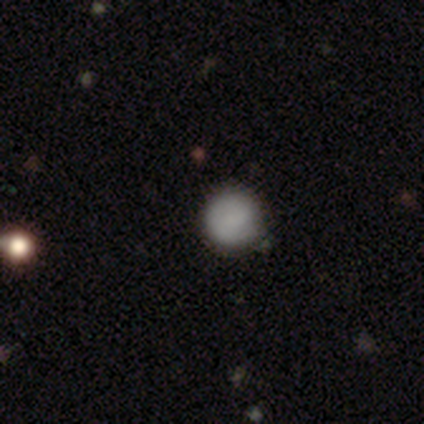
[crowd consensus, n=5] smooth 80%, star or artifact 20%, featured or disk 0%. Down the decision tree: how rounded — round (100%); merging — none (50%, tied with minor disturbance).